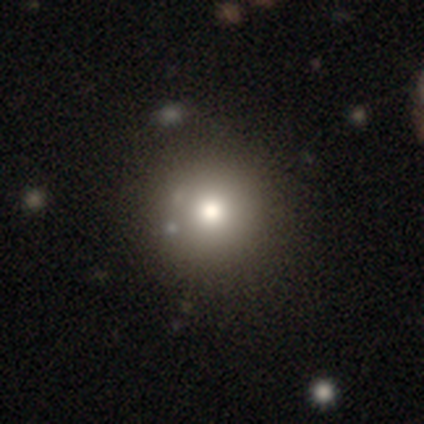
smooth 89%, star or artifact 11%, featured or disk 0%. Down the decision tree: how rounded — round (100%); merging — none (100%).